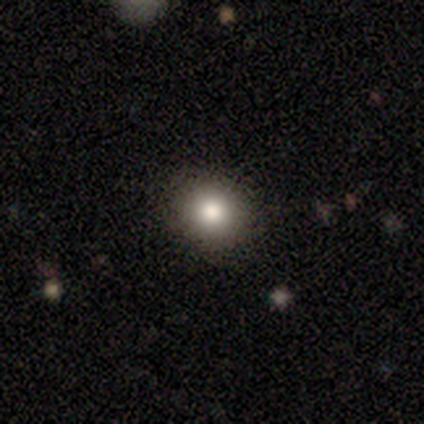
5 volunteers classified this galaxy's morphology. Smooth or featured? smooth (80%)
How rounded? round (100%)
Merging? none (100%)